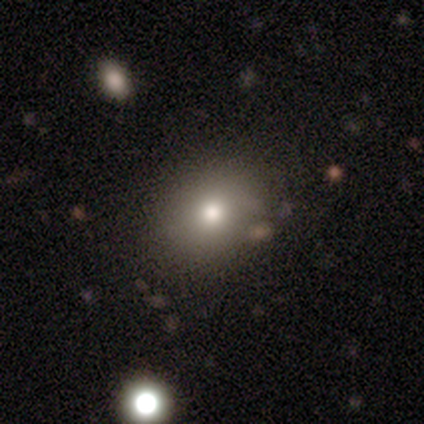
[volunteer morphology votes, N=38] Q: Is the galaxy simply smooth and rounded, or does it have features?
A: smooth — 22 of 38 (58%).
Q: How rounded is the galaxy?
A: round — 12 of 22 (55%).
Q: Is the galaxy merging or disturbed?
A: none — 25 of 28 (89%).